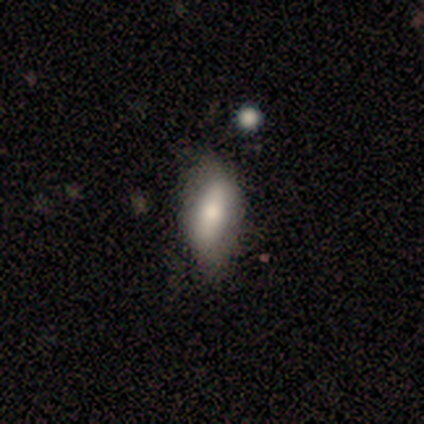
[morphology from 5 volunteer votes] A featured or disk galaxy (60%) viewed edge-on (67%) with a boxy central bulge (50%, tied with rounded). Merging: none (80%).